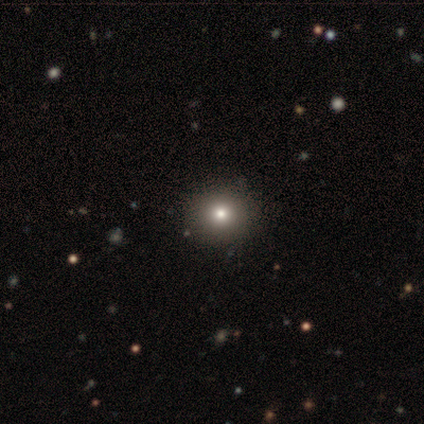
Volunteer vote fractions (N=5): Volunteers were most divided on "smooth or featured": smooth: 60%, featured or disk: 40%, star or artifact: 0%. More confident: how rounded — round (100%); merging — none (100%).